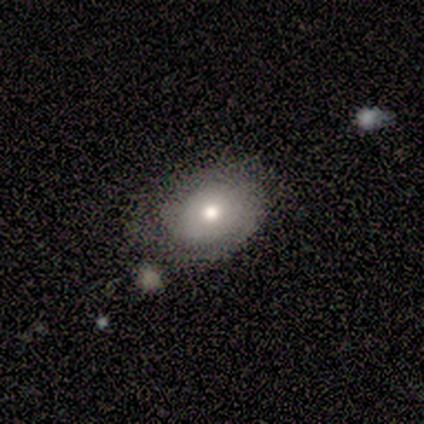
Overall: featured or disk (80%). Edge-on disk: no (75%). Bar: no (100%). Spiral arms: no (100%). Bulge size: moderate (100%). Merging: none (100%).